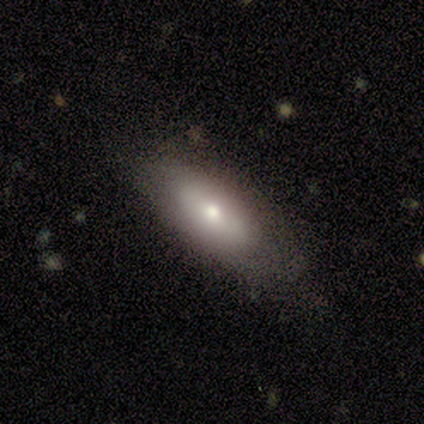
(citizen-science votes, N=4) Smooth or featured? smooth (50%, tied with featured or disk)
How rounded? in between (50%, tied with cigar-shaped)
Merging? none (50%)